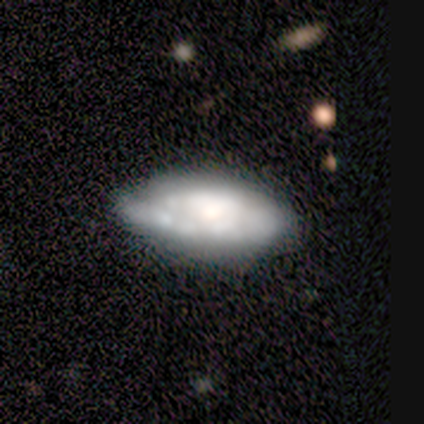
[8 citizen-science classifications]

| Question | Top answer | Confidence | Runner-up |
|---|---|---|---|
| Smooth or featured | smooth | 50% | tied: featured or disk (50%) |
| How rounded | in between | 100% | — |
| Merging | minor disturbance | 38% | tied: major disturbance (38%) |